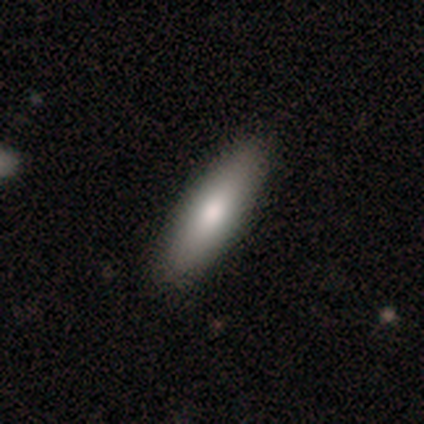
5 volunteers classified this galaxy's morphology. smooth-or-featured: smooth: 80% | star or artifact: 20% | featured or disk: 0%
  how-rounded: in between: 50% (tied) | cigar-shaped: 50% (tied) | round: 0%
  merging: none: 100% | minor disturbance: 0% | major disturbance: 0% | merger: 0%